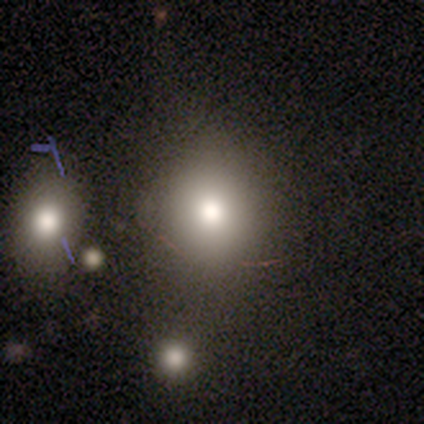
Smooth or featured? smooth (60%)
How rounded? round (100%)
Merging? none (100%)